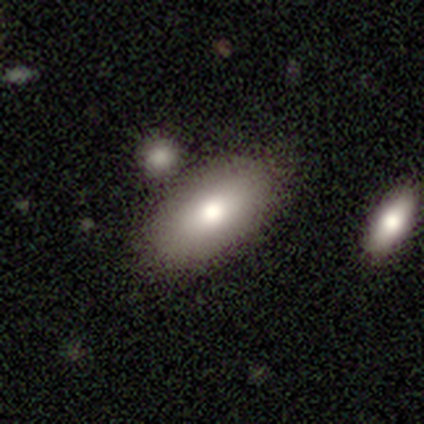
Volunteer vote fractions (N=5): Volunteers were most divided on "smooth or featured" (2-way tie): smooth: 40%, star or artifact: 40%, featured or disk: 20%. More confident: how rounded — in between (100%); merging — none (100%).